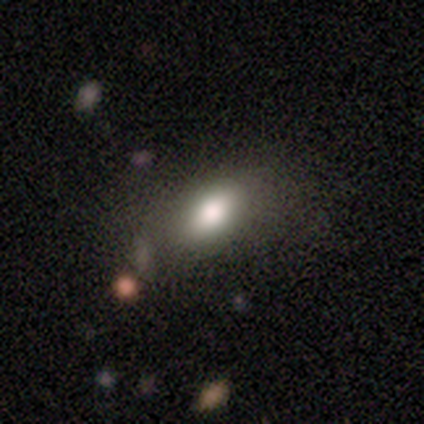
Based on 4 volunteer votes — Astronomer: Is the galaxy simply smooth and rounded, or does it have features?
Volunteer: smooth — 75%.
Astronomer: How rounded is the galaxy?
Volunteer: in between — 100%.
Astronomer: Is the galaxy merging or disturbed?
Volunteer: none — 75%.